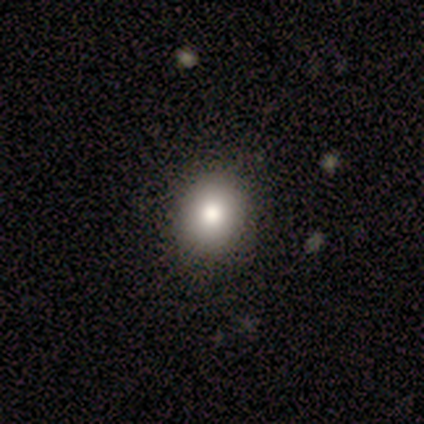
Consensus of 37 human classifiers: smooth-or-featured: smooth: 84% | featured or disk: 8% | star or artifact: 8%
  how-rounded: round: 58% | in between: 42% | cigar-shaped: 0%
  merging: none: 88% | minor disturbance: 9% | major disturbance: 3% | merger: 0%